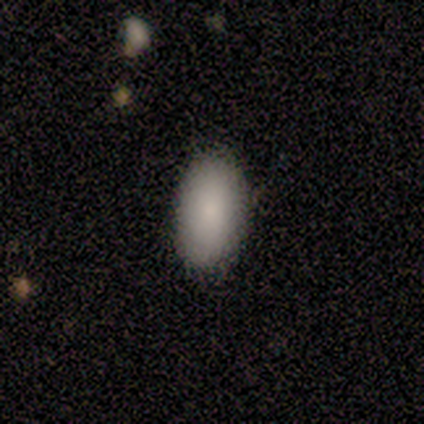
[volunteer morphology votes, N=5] smooth 100%, featured or disk 0%, star or artifact 0%. Down the decision tree: how rounded — in between (100%); merging — none (100%).